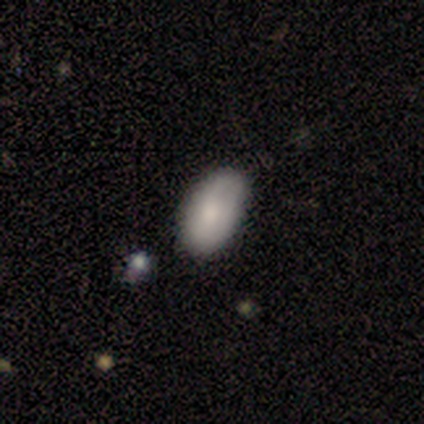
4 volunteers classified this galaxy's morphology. Q: Smooth or featured?
A: smooth (100%)
Q: How rounded?
A: in between (100%)
Q: Merging?
A: none (75%); runner-up: minor disturbance (25%)